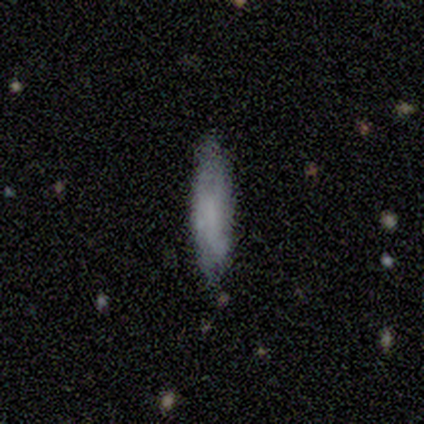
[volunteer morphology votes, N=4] Smooth or featured? 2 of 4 (50%) said smooth. How rounded? 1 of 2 (50%, tied with cigar-shaped) said in between. Merging? 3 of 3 (100%) said none.